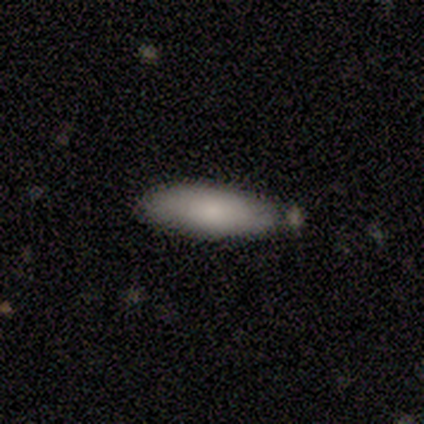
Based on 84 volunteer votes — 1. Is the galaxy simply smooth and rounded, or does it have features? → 85% smooth, 8% featured or disk, 7% star or artifact.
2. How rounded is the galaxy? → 58% in between, 42% cigar-shaped, 0% round.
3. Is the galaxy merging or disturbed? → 67% none, 22% minor disturbance, 10% merger, 1% major disturbance.